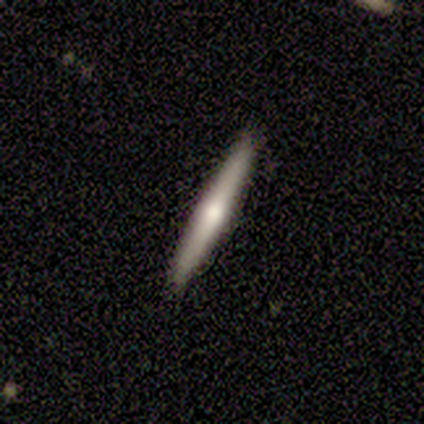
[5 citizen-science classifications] Volunteers were most divided on "smooth or featured": featured or disk: 80%, smooth: 20%, star or artifact: 0%. More confident: edge-on disk — yes (100%); edge-on bulge — rounded (100%); merging — none (100%).